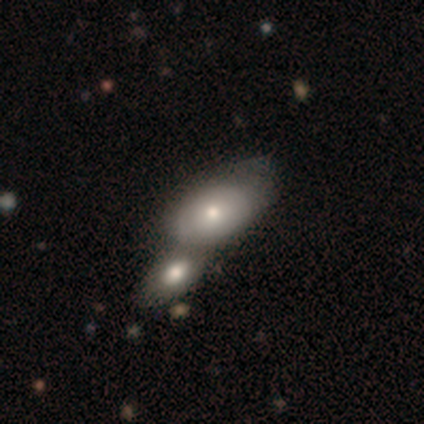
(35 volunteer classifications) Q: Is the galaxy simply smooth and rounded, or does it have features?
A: smooth — 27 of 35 (77%).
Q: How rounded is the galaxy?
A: in between — 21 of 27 (78%).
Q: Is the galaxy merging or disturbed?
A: merger — 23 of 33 (70%).